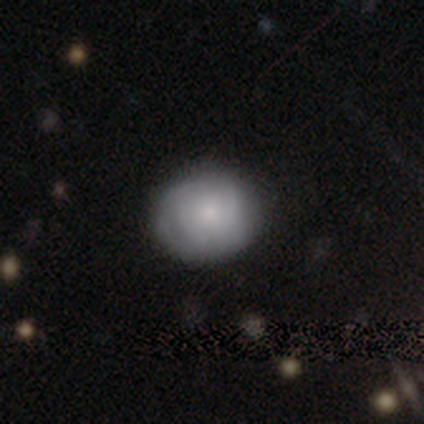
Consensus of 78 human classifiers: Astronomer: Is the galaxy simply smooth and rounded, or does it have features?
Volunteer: smooth — 58% (runner-up: featured or disk, 38%).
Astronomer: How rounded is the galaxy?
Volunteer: round — 80%.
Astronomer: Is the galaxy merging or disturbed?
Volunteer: none — 36%.